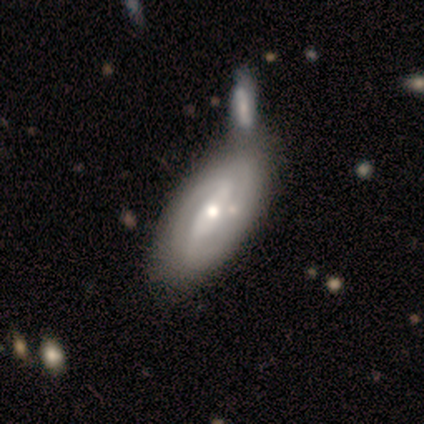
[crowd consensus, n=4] Q: Smooth or featured?
A: featured or disk (75%); runner-up: smooth (25%)
Q: Edge-on disk?
A: no (100%)
Q: Bar?
A: weak (67%); runner-up: strong (33%)
Q: Spiral arms?
A: yes (100%)
Q: Spiral winding?
A: medium (67%); runner-up: loose (33%)
Q: Spiral arm count?
A: 2 (100%)
Q: Bulge size?
A: moderate (67%); runner-up: small (33%)
Q: Merging?
A: merger (75%); runner-up: none (25%)